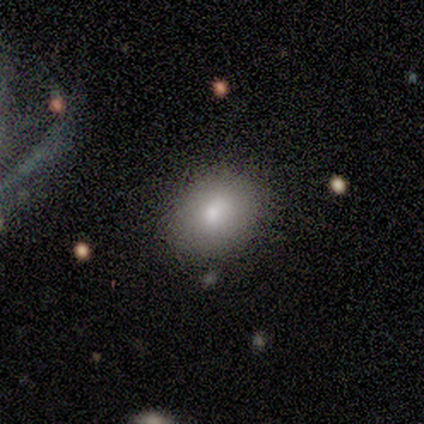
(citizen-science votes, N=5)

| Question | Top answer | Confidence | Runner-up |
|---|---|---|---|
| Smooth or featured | smooth | 60% | star or artifact (40%) |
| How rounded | in between | 67% | round (33%) |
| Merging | none | 100% | — |